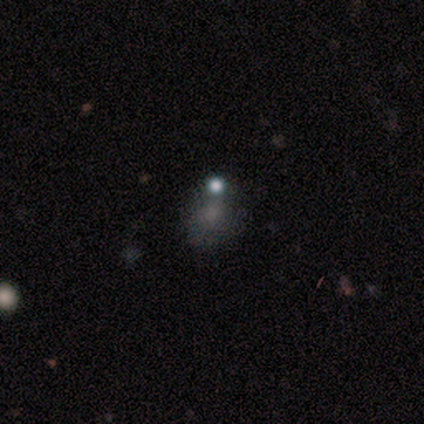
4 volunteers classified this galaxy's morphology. Overall: smooth (50%; featured or disk 25%). How rounded: round (50%, tied with in between). Merging: major disturbance (67%; merger 33%).